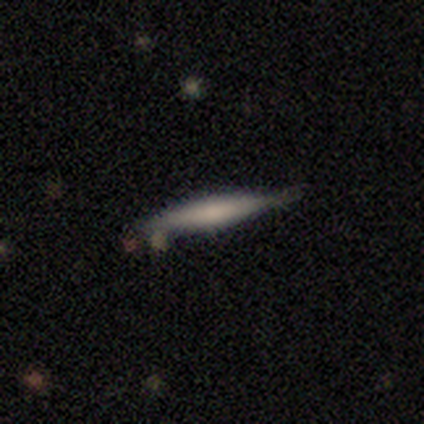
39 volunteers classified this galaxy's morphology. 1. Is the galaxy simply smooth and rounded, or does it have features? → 59% smooth, 41% featured or disk, 0% star or artifact.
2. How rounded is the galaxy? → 91% cigar-shaped, 9% in between, 0% round.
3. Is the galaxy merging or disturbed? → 69% none, 23% minor disturbance, 5% major disturbance, 3% merger.